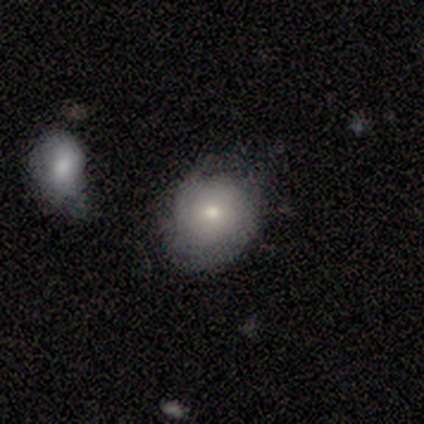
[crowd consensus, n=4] Volunteers were most divided on "how rounded": round: 75%, in between: 25%, cigar-shaped: 0%. More confident: smooth or featured — smooth (100%); merging — none (75%).